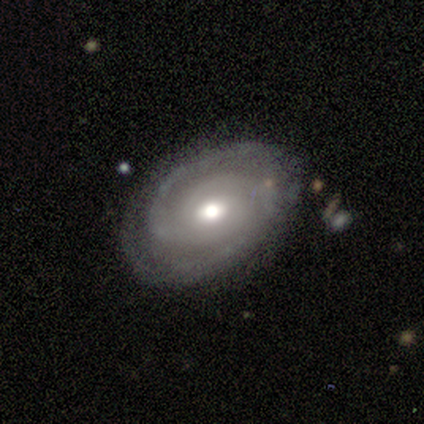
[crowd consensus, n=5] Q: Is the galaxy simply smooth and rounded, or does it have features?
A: featured or disk — 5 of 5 (100%).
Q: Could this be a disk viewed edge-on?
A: no — 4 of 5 (80%).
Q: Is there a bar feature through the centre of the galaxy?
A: weak — 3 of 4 (75%).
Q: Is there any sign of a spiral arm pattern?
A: yes — 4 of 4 (100%).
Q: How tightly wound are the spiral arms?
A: tight — 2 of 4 (50%, tied with loose).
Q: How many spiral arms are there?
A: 2 — 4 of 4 (100%).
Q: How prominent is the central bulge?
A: moderate — 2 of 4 (50%, tied with small).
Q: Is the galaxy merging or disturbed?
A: none — 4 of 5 (80%).